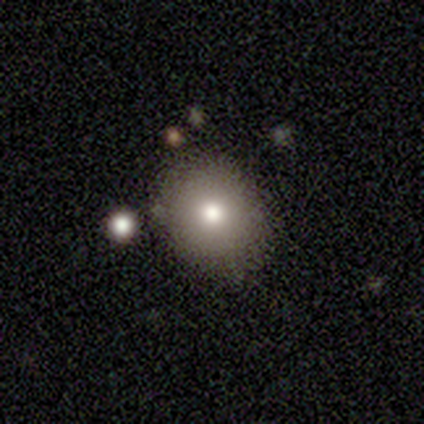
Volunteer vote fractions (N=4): Smooth or featured? 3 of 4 (75%) said smooth. How rounded? 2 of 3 (67%) said in between. Merging? 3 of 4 (75%) said minor disturbance.